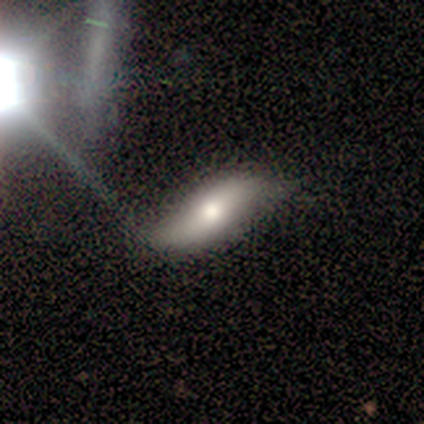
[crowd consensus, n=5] Volunteers were most divided on "smooth or featured" (2-way tie): smooth: 40%, featured or disk: 40%, star or artifact: 20%. More confident: how rounded — in between (100%); merging — none (50%).